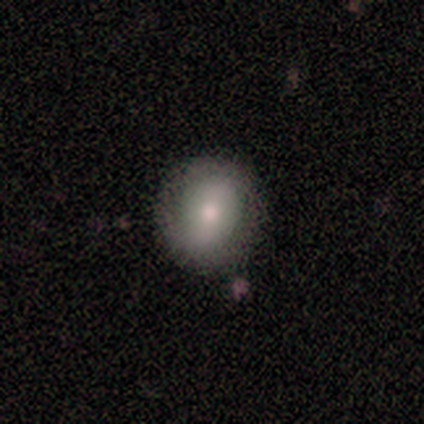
Morphology: type=smooth (70%); roundness=round (70%); merging=none (94%).